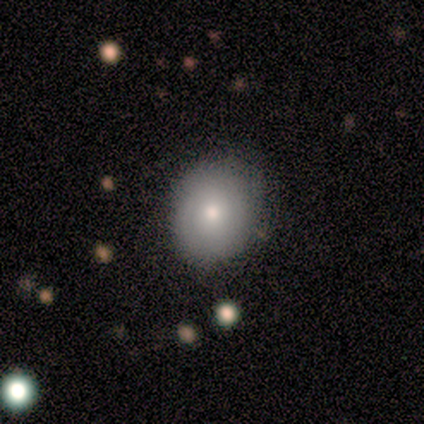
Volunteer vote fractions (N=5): Morphology: type=featured or disk (60%); edge-on=no (100%); bar=no (100%); spiral arms=no (67%); bulge=moderate (67%); merging=none (80%).